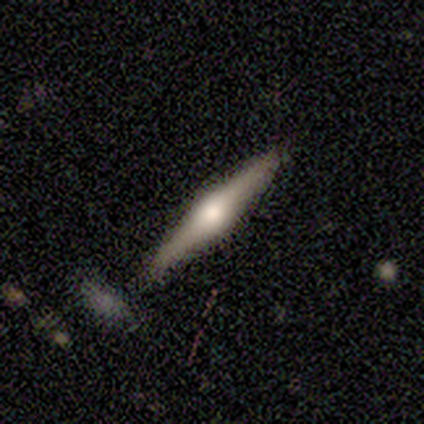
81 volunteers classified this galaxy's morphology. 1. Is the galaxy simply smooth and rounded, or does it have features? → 84% featured or disk, 10% smooth, 6% star or artifact.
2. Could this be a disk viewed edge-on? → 99% yes, 1% no.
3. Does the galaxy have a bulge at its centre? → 90% rounded, 9% boxy, 1% none.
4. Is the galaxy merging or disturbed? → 88% none, 7% minor disturbance, 3% major disturbance, 3% merger.